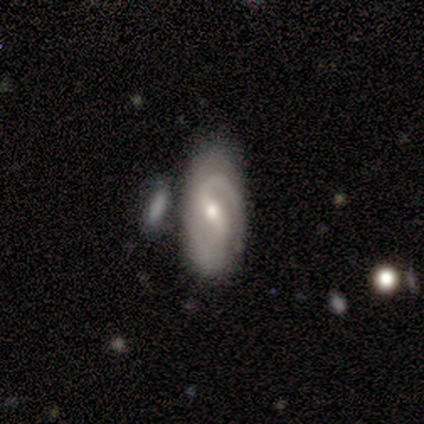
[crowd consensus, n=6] Overall: featured or disk (83%). Edge-on disk: no (60%; yes 40%). Bar: weak (67%; strong 33%). Spiral arms: yes (100%). Spiral arm count: 2 (100%). Spiral winding: medium (67%; tight 33%). Bulge size: moderate (100%). Merging: merger (50%; none 17%).